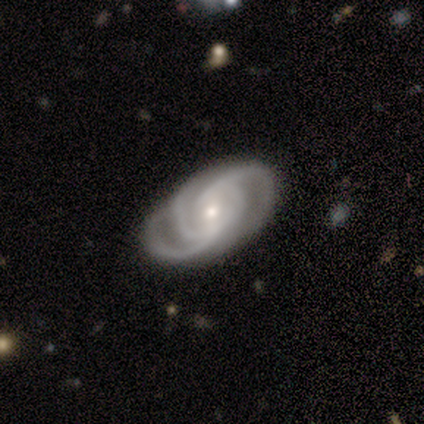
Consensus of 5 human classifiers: This is clearly a featured or disk galaxy (100%). It is clearly not viewed edge-on (100%). Bar: clearly weak (80%). Spiral arm pattern: clearly yes (100%). Spiral arm count: likely 3 (60%). Spiral winding: likely tight (60%). Central bulge: clearly small (80%). Merging: clearly none (100%).